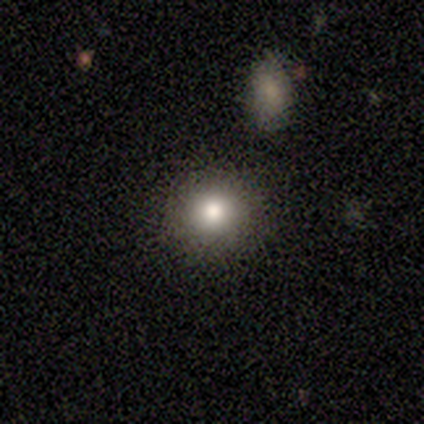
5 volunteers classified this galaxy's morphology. smooth_or_featured: smooth (p=0.60) [alt: featured or disk p=0.20]
how_rounded: round (p=1.00)
merging: none (p=1.00)